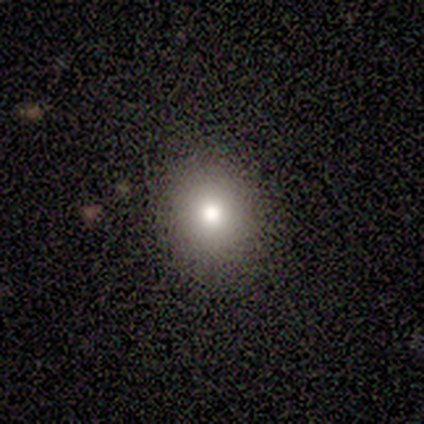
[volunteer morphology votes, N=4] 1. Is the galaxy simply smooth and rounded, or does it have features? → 75% smooth, 25% featured or disk, 0% star or artifact.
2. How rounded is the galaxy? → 67% round, 33% in between, 0% cigar-shaped.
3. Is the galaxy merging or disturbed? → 75% none, 25% minor disturbance, 0% major disturbance, 0% merger.